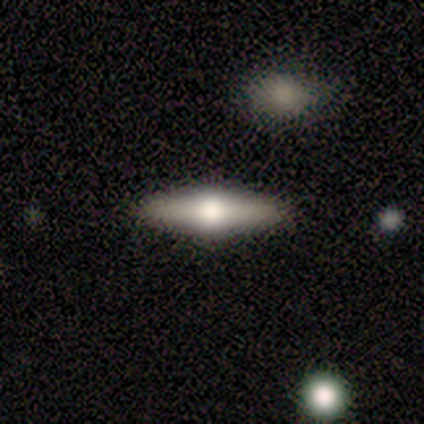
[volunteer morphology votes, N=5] A featured or disk galaxy (60%) viewed edge-on (100%) with a rounded central bulge (100%).

Vote fractions:
- Smooth or featured? featured or disk: 60% / smooth: 40% / star or artifact: 0%
- Edge-on disk? yes: 100% / no: 0%
- Edge-on bulge? rounded: 100% / boxy: 0% / none: 0%
- Merging? none: 80% / minor disturbance: 20% / major disturbance: 0% / merger: 0%